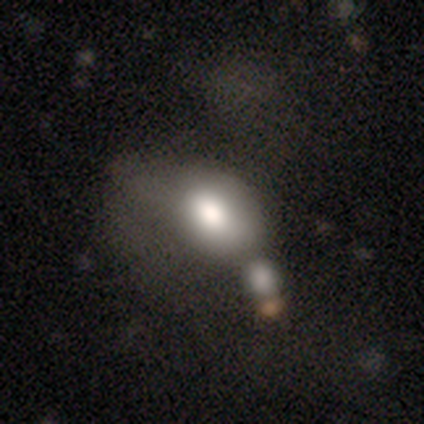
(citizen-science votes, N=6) smooth-or-featured: smooth: 67% | star or artifact: 33% | featured or disk: 0%
  how-rounded: in between: 100% | round: 0% | cigar-shaped: 0%
  merging: none: 50% | major disturbance: 25% | merger: 25% | minor disturbance: 0%